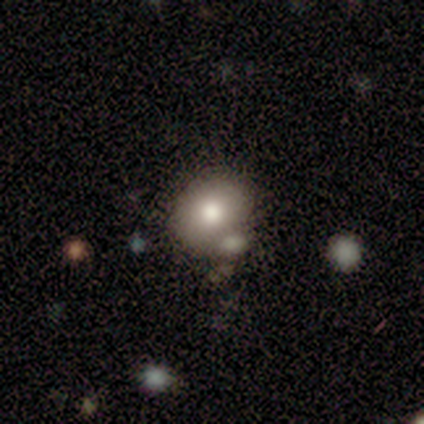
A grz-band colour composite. It shows a smooth galaxy with no disk features (70%) that is round (54%). Merging: none (63%).